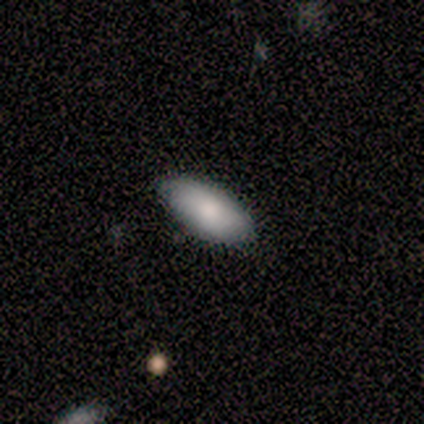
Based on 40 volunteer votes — Smooth or featured: smooth — 90% (featured or disk — 10%)
How rounded: in between — 92% (cigar-shaped — 6%)
Merging: none — 65% (minor disturbance — 2%)